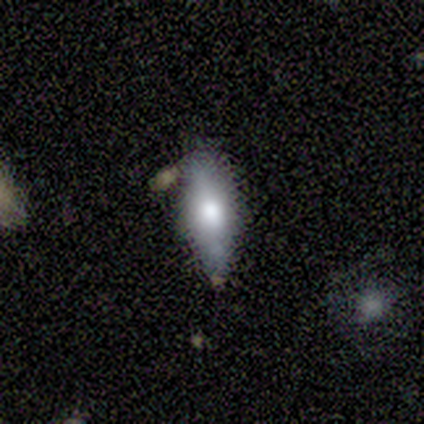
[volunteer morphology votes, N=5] Smooth or featured?
  - smooth: 60% *
  - featured or disk: 20%
  - star or artifact: 20%
How rounded?
  - in between: 67% *
  - round: 33%
  - cigar-shaped: 0%
Merging?
  - none: 75% *
  - minor disturbance: 25%
  - major disturbance: 0%
  - merger: 0%